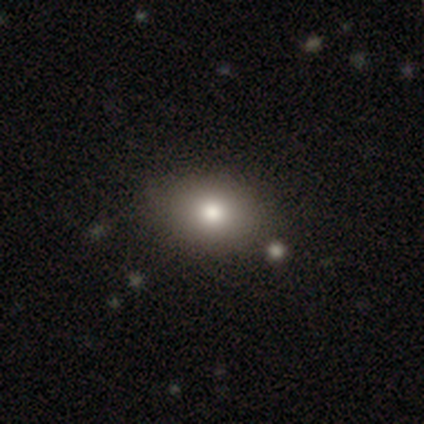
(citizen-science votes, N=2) Morphology: type=smooth (50%, tied with featured or disk); roundness=round (100%); merging=none (100%).